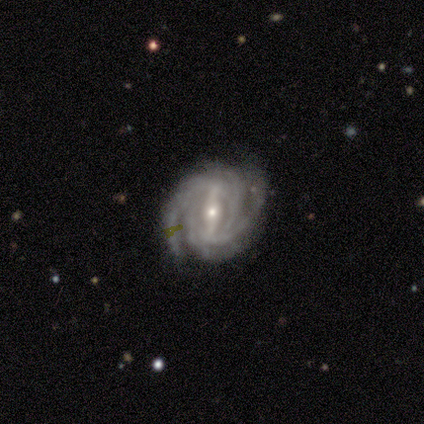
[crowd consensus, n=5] smooth_or_featured: featured or disk (p=1.00)
disk_edge_on: no (p=1.00)
bar: weak (p=0.60) [alt: strong p=0.40]
has_spiral_arms: yes (p=1.00)
spiral_winding: tight (p=0.80) [alt: medium p=0.20]
spiral_arm_count: more than 4 (p=0.40) [alt: 2 p=0.20]
bulge_size: moderate (p=0.80) [alt: small p=0.20]
merging: none (p=1.00)